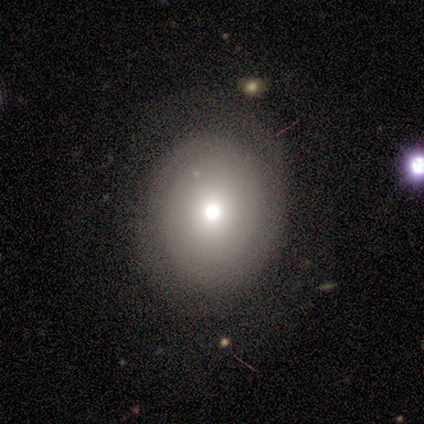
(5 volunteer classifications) Smooth or featured? 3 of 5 (60%) said featured or disk. Edge-on disk? 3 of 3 (100%) said no. Bar? 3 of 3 (100%) said no. Spiral arms? 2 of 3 (67%) said no. Bulge size? 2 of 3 (67%) said moderate. Merging? 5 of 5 (100%) said none.